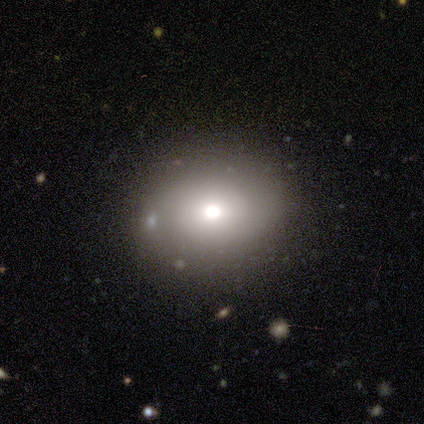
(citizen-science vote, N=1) This is clearly a smooth galaxy (100%). How rounded: clearly in between (100%). Merging: clearly none (100%).